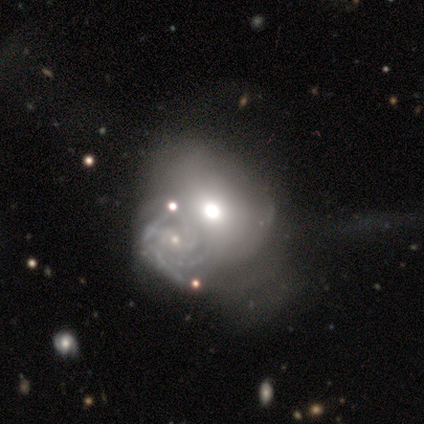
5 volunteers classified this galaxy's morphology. smooth-or-featured: featured or disk: 60% | smooth: 40% | star or artifact: 0%
  disk-edge-on: no: 100% | yes: 0%
    bar: no: 100% | strong: 0% | weak: 0%
    has-spiral-arms: no: 67% | yes: 33%
    bulge-size: moderate: 67% | small: 33% | dominant: 0% | large: 0% | none: 0%
  merging: major disturbance: 40% (tied) | merger: 40% (tied) | minor disturbance: 20% | none: 0%